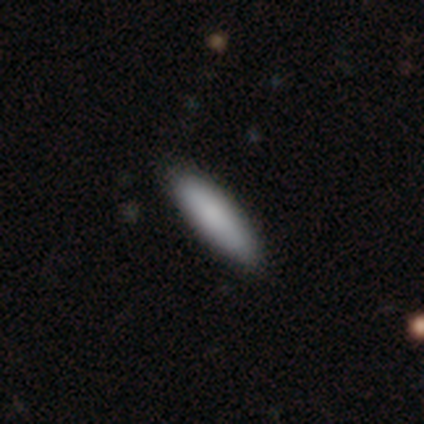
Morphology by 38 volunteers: Smooth or featured? smooth (89%)
How rounded? cigar-shaped (71%)
Merging? none (89%)